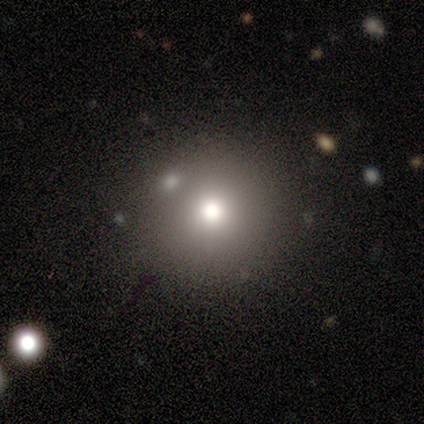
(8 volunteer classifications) Overall: smooth (88%). How rounded: round (86%). Merging: none (88%).